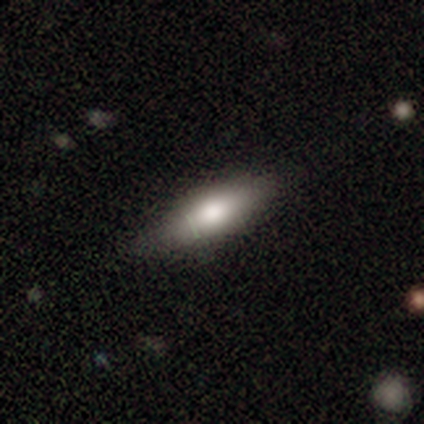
smooth_or_featured: smooth (p=1.00)
how_rounded: cigar-shaped (p=0.80) [alt: in between p=0.20]
merging: none (p=1.00)